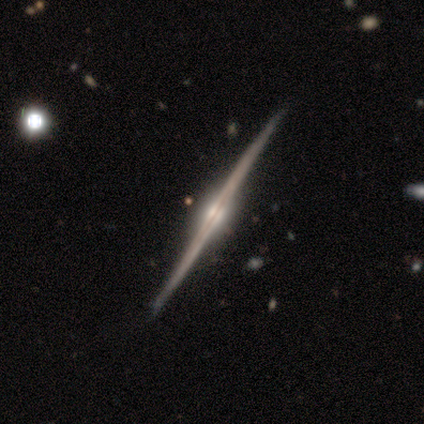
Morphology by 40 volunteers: featured or disk 98%, smooth 2%, star or artifact 0%. Down the decision tree: edge-on disk — yes (97%); edge-on bulge — rounded (89%); merging — none (70%).